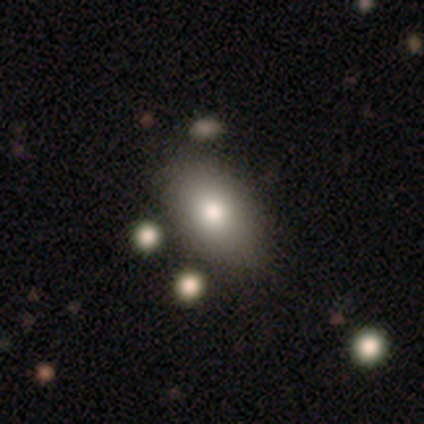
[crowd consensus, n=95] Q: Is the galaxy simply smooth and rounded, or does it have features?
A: smooth — 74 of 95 (78%).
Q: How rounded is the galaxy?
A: in between — 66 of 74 (89%).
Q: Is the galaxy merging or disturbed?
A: none — 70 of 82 (85%).